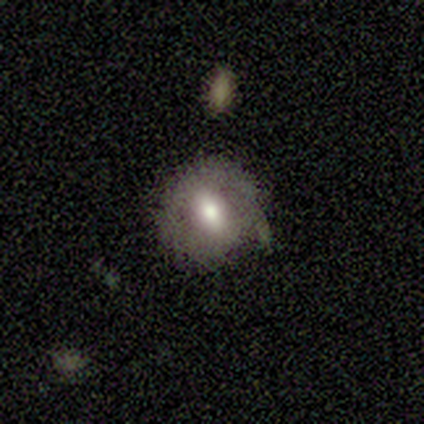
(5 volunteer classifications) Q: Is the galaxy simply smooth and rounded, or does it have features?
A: smooth — 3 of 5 (60%).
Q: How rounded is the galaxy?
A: round — 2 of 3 (67%).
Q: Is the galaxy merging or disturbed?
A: none — 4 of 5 (80%).